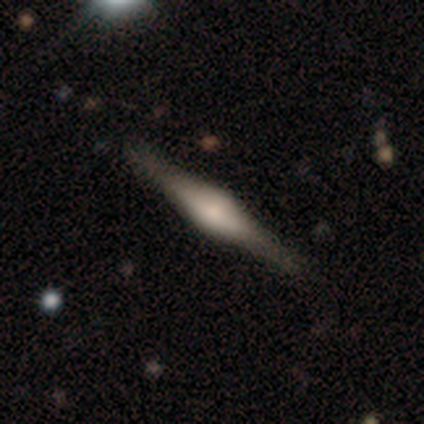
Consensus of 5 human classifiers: This is clearly a featured or disk galaxy (80%). It is clearly viewed edge-on (100%). Edge-on bulge: possibly boxy (50%, tied with rounded). Merging: likely none (75%).